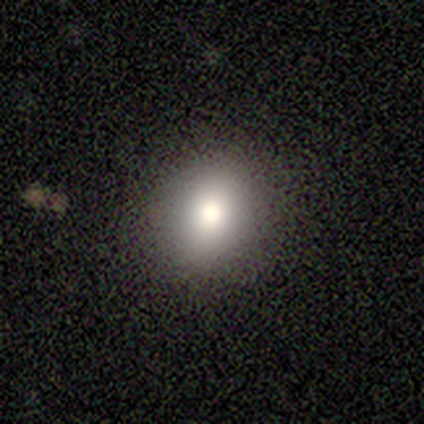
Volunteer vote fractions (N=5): Q: Smooth or featured?
A: smooth (60%); runner-up: featured or disk (20%)
Q: How rounded?
A: round (100%)
Q: Merging?
A: none (100%)